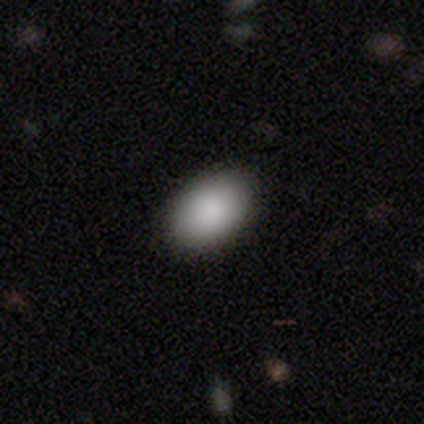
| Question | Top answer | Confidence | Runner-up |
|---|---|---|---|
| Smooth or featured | smooth | 91% | star or artifact (8%) |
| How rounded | in between | 91% | round (9%) |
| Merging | none | 94% | minor disturbance (5%) |